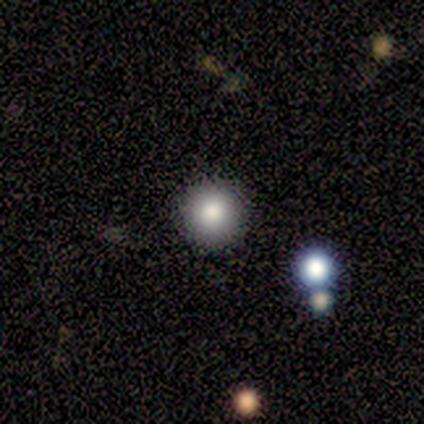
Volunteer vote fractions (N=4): This appears to be a smooth galaxy with no disk features (100%) that is round (100%). Merging: none (100%).